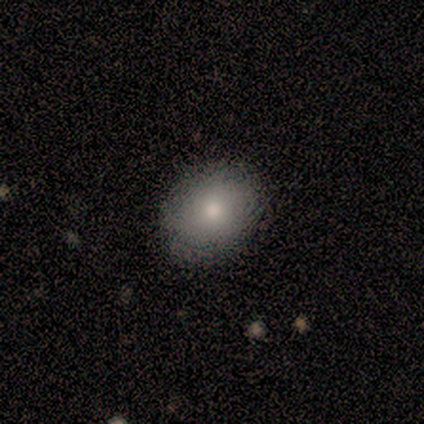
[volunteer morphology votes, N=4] This appears to be a smooth galaxy with no disk features (100%) that is round (50%, tied with in between). Merging: none (100%).